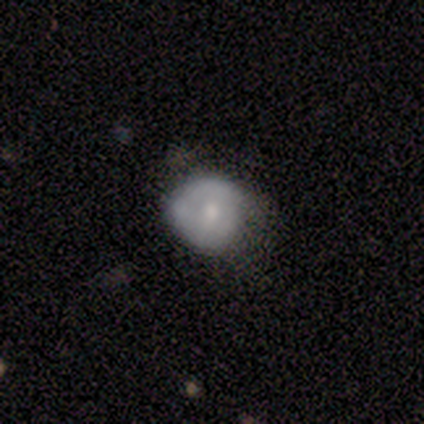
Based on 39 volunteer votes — Smooth or featured? smooth (72%)
How rounded? round (79%)
Merging? none (47%)